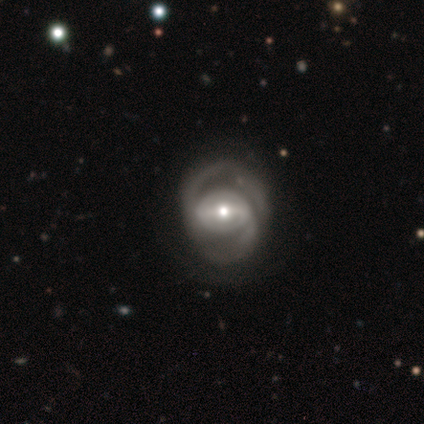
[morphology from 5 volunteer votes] Smooth or featured? featured or disk (100%)
Edge-on disk? no (100%)
Bar? strong (60%)
Spiral arms? yes (100%)
Spiral winding? tight (60%)
Spiral arm count? 2 (60%)
Bulge size? small (60%)
Merging? none (60%)